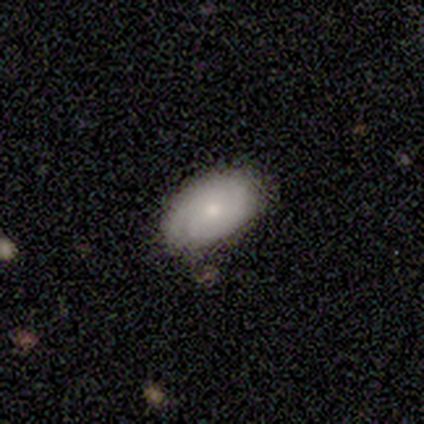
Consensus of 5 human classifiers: Overall: smooth (80%). How rounded: in between (100%). Merging: none (100%).